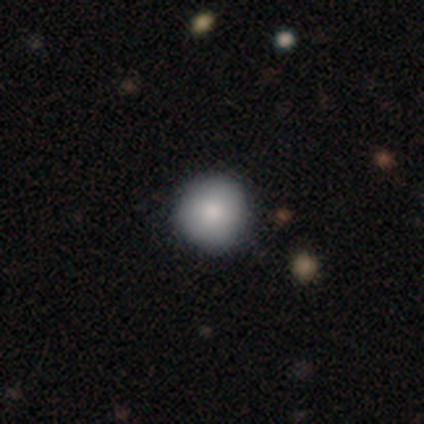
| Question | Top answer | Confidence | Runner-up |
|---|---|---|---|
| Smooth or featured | smooth | 60% | featured or disk (40%) |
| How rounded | round | 100% | — |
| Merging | none | 100% | — |